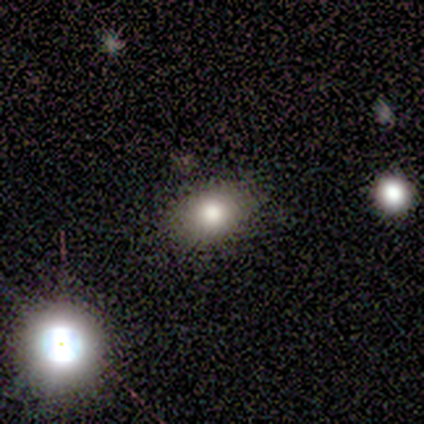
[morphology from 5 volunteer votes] type=smooth (80%); roundness=in between (75%); merging=none (100%).